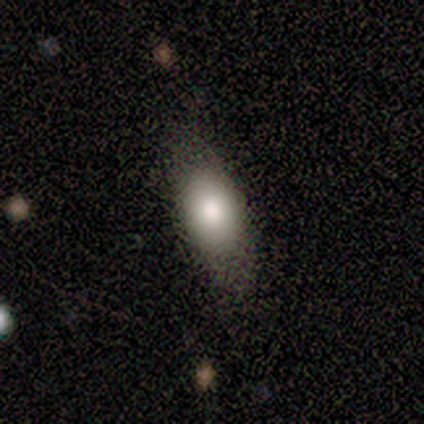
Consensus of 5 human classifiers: This is clearly a smooth galaxy (80%). How rounded: likely in between (75%). Merging: clearly none (80%).